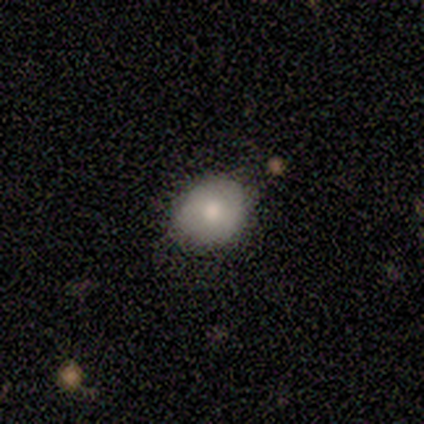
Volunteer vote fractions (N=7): Smooth or featured?
  - smooth: 71% *
  - featured or disk: 14%
  - star or artifact: 14%
How rounded?
  - in between: 60% *
  - round: 40%
  - cigar-shaped: 0%
Merging?
  - none: 67% *
  - minor disturbance: 33%
  - major disturbance: 0%
  - merger: 0%